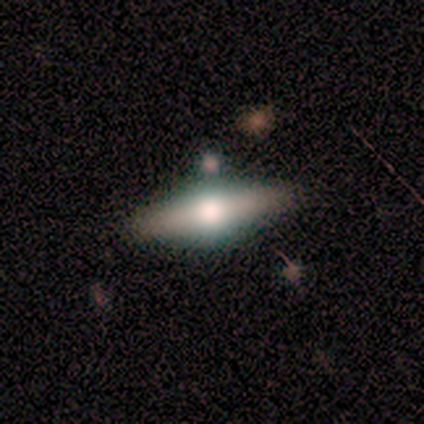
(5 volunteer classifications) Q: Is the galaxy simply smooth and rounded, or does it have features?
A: smooth — 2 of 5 (40%, tied with featured or disk).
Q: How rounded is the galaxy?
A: in between — 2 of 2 (100%).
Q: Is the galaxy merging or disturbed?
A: none — 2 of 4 (50%, tied with minor disturbance).